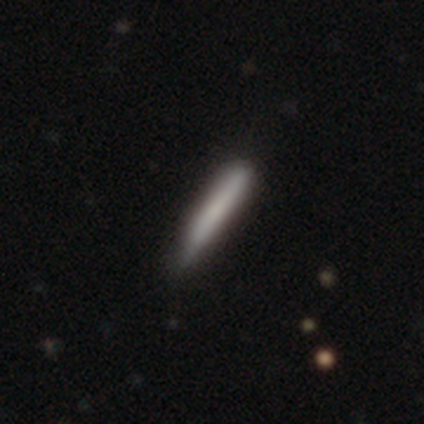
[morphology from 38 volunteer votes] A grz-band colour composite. It shows a smooth galaxy with no disk features (76%) that is cigar-shaped (93%). Merging: none (78%).